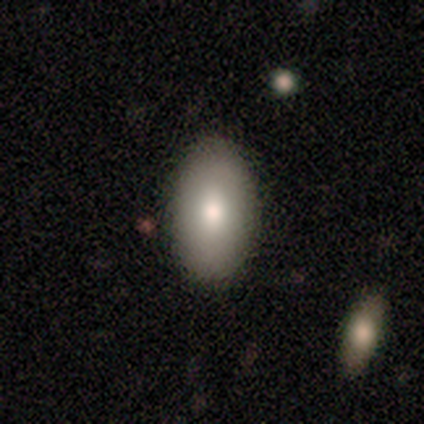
Volunteers were most divided on "how rounded": in between: 75%, round: 25%, cigar-shaped: 0%. More confident: smooth or featured — smooth (100%); merging — none (75%).